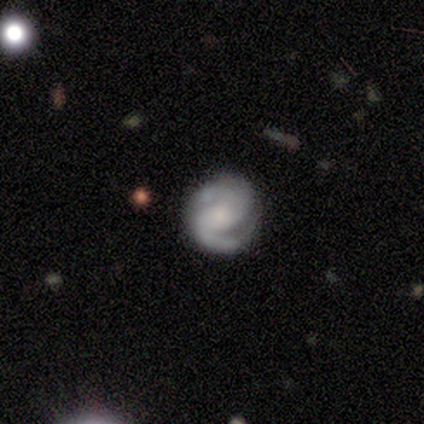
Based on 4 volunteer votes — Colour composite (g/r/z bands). It shows a featured or disk galaxy (75%) with no bar (67%), 2 (100%) medium (67%) spiral arms (100%) and a small central bulge (67%). Merging: none (67%).